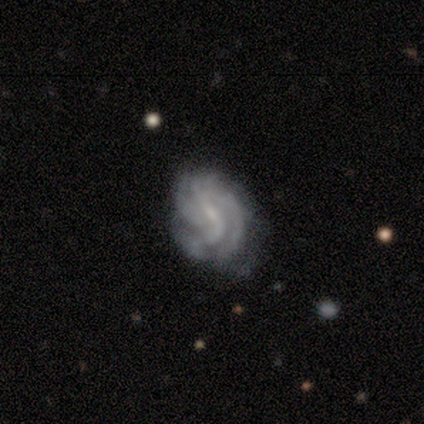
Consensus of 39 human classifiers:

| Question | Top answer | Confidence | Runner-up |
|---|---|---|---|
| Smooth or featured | featured or disk | 79% | smooth (15%) |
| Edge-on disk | no | 97% | yes (3%) |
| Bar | weak | 77% | no (20%) |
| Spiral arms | yes | 87% | no (13%) |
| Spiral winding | tight | 46% | medium (42%) |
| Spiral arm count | can't tell | 50% | 3 (15%) |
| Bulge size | small | 53% | none (40%) |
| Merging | none | 62% | minor disturbance (30%) |